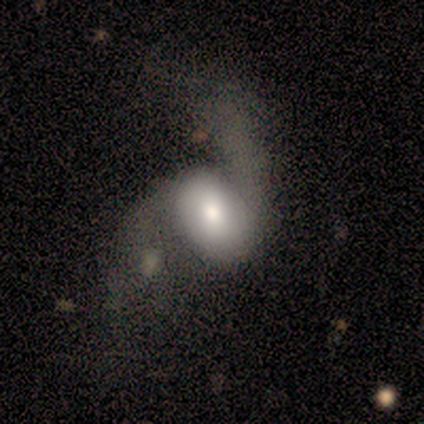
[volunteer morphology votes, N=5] type=featured or disk (100%); edge-on=no (100%); bar=no (60%); spiral arms=yes (80%); winding=loose (100%); arm count=2 (100%); bulge=moderate (60%); merging=none (40%, tied with minor disturbance).